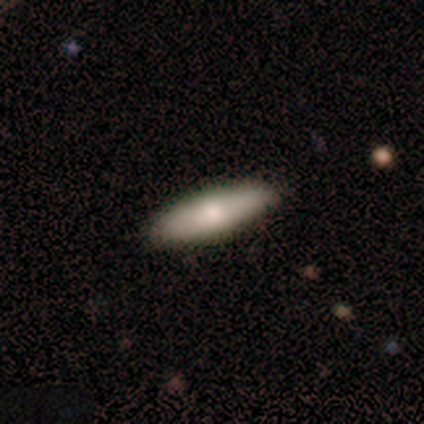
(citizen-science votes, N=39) smooth 82%, featured or disk 15%, star or artifact 3%. Down the decision tree: how rounded — cigar-shaped (69%); merging — none (89%).